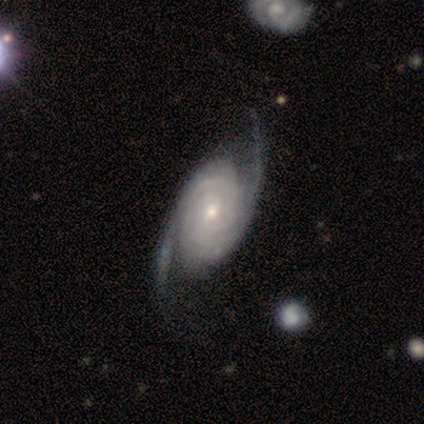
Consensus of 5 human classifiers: This appears to be a featured or disk galaxy (100%) with no bar (60%), 2 (80%) medium (60%) spiral arms (100%) and a small central bulge (80%). Merging: none (60%).